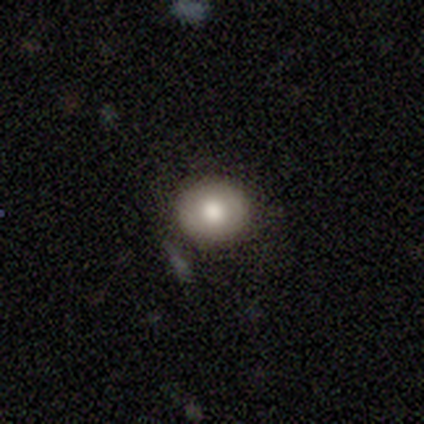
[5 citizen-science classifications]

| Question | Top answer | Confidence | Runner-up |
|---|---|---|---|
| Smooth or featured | smooth | 80% | star or artifact (20%) |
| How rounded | round | 100% | — |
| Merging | none | 75% | major disturbance (25%) |